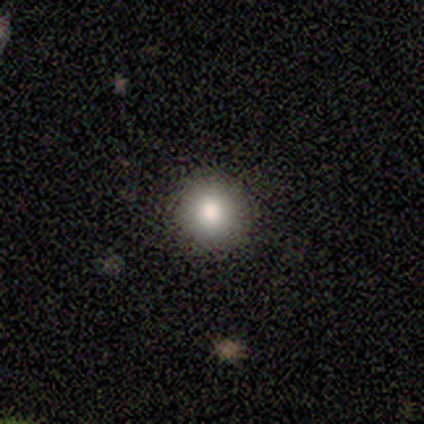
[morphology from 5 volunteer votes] This is clearly a smooth galaxy (100%). How rounded: clearly round (100%). Merging: likely none (60%).